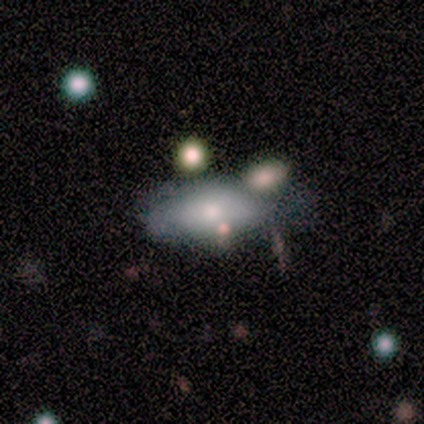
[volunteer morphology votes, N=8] Overall: smooth (62%; featured or disk 38%). How rounded: in between (100%). Merging: minor disturbance (50%; merger 38%).